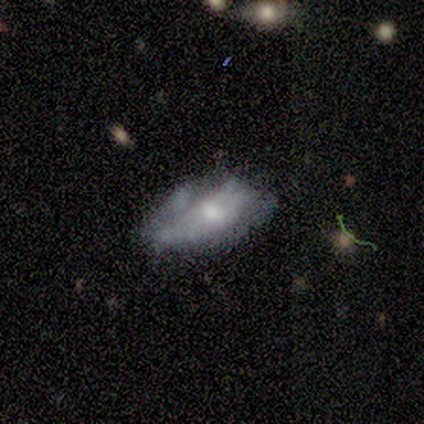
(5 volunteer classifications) This appears to be a smooth galaxy with no disk features (60%) that is in between round and cigar-shaped (100%). Merging: minor disturbance (50%).